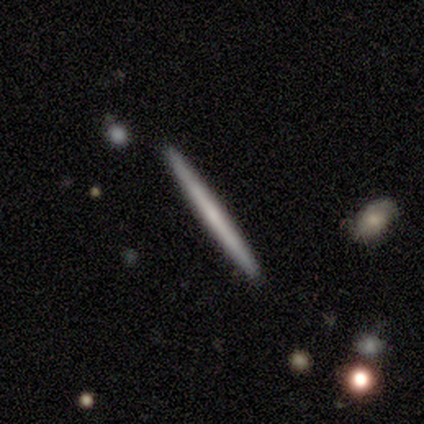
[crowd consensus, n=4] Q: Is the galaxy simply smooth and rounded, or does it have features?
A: smooth — 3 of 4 (75%).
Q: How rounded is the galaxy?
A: cigar-shaped — 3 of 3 (100%).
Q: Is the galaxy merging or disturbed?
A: none — 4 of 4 (100%).